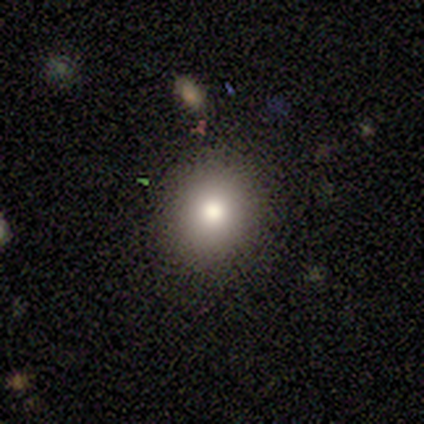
Q: Smooth or featured?
A: smooth (75%); runner-up: featured or disk (12%)
Q: How rounded?
A: round (80%); runner-up: in between (20%)
Q: Merging?
A: none (86%); runner-up: minor disturbance (9%)